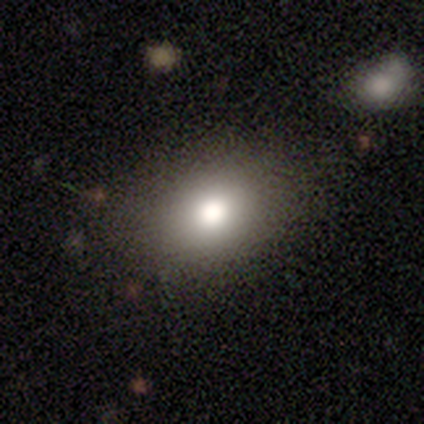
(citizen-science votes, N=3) Overall: smooth (100%). How rounded: in between (100%). Merging: none (67%; minor disturbance 33%).